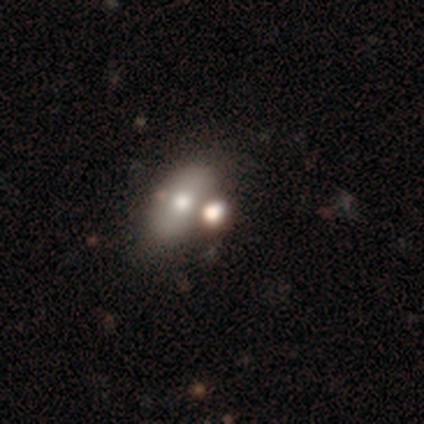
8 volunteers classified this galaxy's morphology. Volunteers were most divided on "smooth or featured": smooth: 50%, featured or disk: 38%, star or artifact: 12%. More confident: how rounded — in between (75%); merging — none (71%).